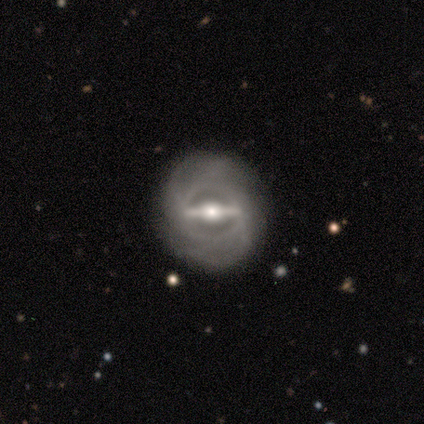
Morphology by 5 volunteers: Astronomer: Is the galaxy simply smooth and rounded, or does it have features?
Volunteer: featured or disk — 100%.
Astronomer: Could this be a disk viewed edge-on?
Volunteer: no — 100%.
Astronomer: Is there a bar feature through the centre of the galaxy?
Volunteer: strong — 100%.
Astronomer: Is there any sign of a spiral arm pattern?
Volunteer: yes — 60% (runner-up: no, 40%).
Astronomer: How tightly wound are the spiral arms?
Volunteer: tight — 67%.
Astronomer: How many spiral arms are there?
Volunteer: can't tell — 67%.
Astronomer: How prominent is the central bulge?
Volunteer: moderate — 80%.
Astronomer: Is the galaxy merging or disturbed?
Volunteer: none — 80%.